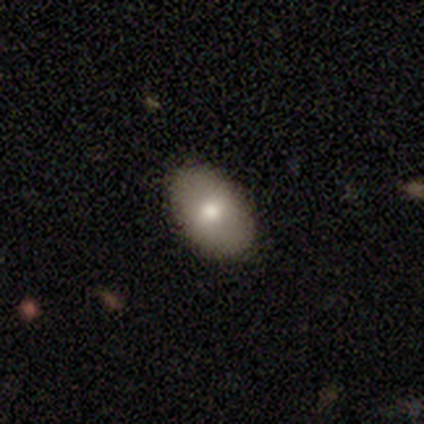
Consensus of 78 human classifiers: This appears to be a smooth galaxy with no disk features (81%) that is in between round and cigar-shaped (89%). Merging: none (44%).